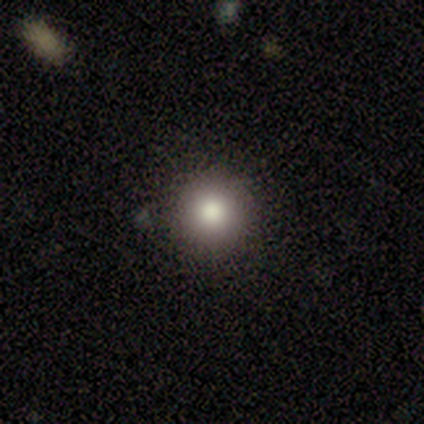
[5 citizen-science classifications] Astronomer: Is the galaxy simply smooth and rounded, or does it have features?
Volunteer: smooth — 60%.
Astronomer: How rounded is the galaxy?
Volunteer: round — 100%.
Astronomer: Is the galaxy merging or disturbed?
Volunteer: none — 100%.